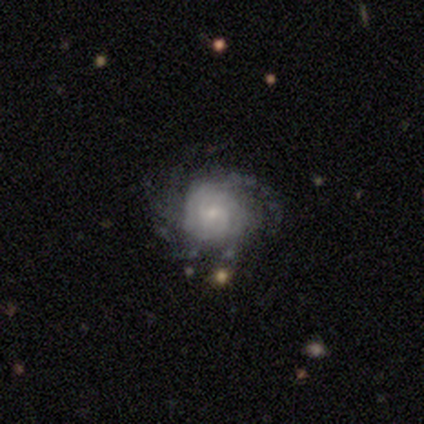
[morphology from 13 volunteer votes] smooth_or_featured: featured or disk (p=0.92) [alt: smooth p=0.08]
disk_edge_on: no (p=1.00)
bar: no (p=0.58) [alt: weak p=0.33]
has_spiral_arms: yes (p=1.00)
spiral_winding: tight (p=0.58) [alt: medium p=0.25]
spiral_arm_count: more than 4 (p=0.33) [tied with: can't tell p=0.33]
bulge_size: small (p=0.75) [alt: moderate p=0.25]
merging: none (p=0.46) [alt: major disturbance p=0.31]